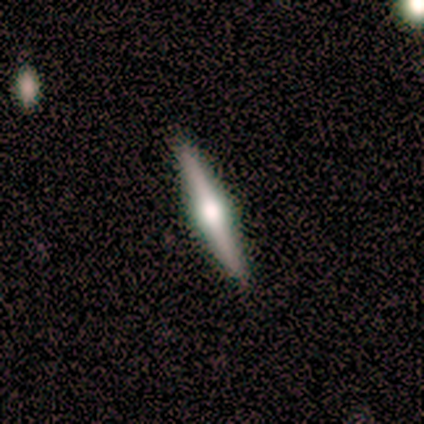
Overall: featured or disk (100%). Edge-on disk: yes (88%). Edge-on bulge: rounded (86%). Merging: none (62%; minor disturbance 25%).